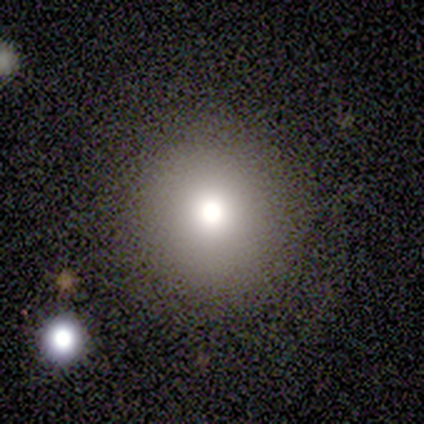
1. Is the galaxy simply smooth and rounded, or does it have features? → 60% smooth, 20% featured or disk, 20% star or artifact.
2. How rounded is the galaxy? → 100% round, 0% in between, 0% cigar-shaped.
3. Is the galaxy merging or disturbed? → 75% none, 25% minor disturbance, 0% major disturbance, 0% merger.